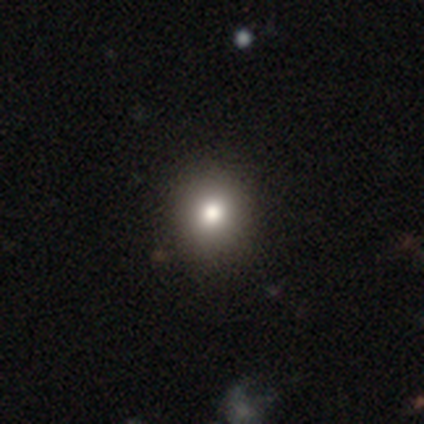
smooth 100%, featured or disk 0%, star or artifact 0%. Down the decision tree: how rounded — round (80%); merging — none (80%).